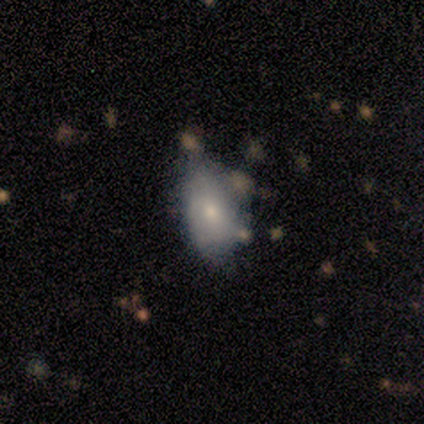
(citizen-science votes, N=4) This appears to be a featured or disk galaxy (75%) with no bar (100%), tight (100%) spiral arms (50%, tied with no) and a small central bulge (100%). Merging: none (75%).